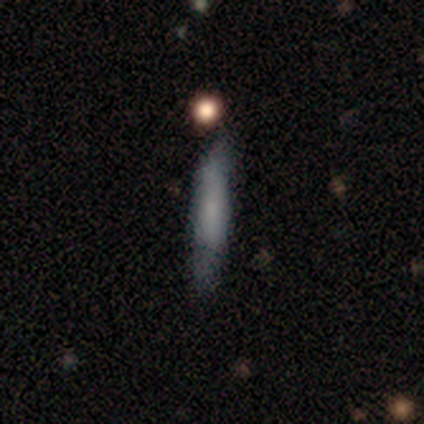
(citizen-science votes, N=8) smooth_or_featured: smooth (p=0.62) [alt: featured or disk p=0.25]
how_rounded: cigar-shaped (p=1.00)
merging: none (p=0.43) [tied with: minor disturbance p=0.43]